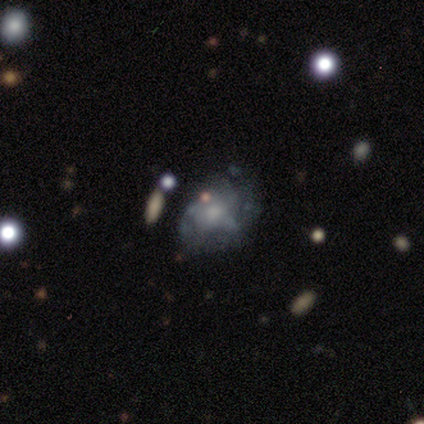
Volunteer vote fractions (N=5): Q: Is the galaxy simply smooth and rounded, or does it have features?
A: featured or disk — 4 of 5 (80%).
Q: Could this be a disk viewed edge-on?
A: no — 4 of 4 (100%).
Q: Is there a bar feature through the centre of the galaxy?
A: no — 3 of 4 (75%).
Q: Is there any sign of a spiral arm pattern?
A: yes — 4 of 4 (100%).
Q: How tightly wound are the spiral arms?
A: tight — 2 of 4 (50%, tied with loose).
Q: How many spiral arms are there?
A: can't tell — 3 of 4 (75%).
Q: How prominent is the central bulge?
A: moderate — 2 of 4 (50%, tied with small).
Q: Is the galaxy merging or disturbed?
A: none — 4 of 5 (80%).